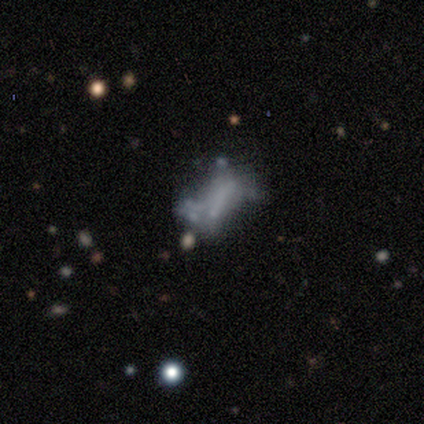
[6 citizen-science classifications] This appears to be a smooth galaxy with no disk features (83%) that is in between round and cigar-shaped (60%). Merging: major disturbance (50%).